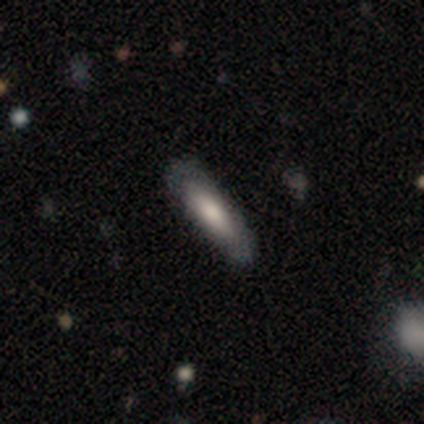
A smooth galaxy with no disk features (100%) that is cigar-shaped (100%).

Vote fractions:
- Smooth or featured? smooth: 100% / featured or disk: 0% / star or artifact: 0%
- How rounded? cigar-shaped: 100% / round: 0% / in between: 0%
- Merging? none: 100% / minor disturbance: 0% / major disturbance: 0% / merger: 0%